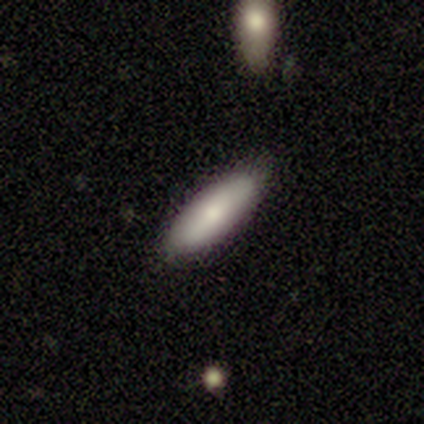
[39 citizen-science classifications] A smooth galaxy with no disk features (79%) that is in between round and cigar-shaped (55%). Merging: none (89%).